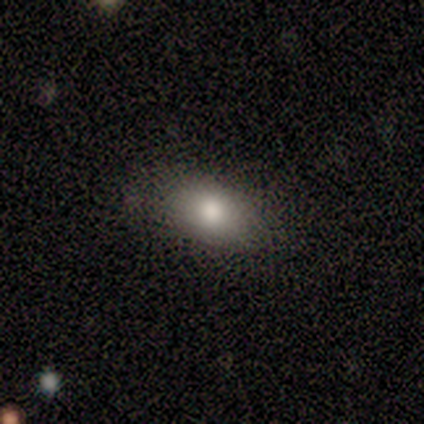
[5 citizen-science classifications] smooth_or_featured: smooth (p=0.80) [alt: star or artifact p=0.20]
how_rounded: in between (p=1.00)
merging: none (p=0.75) [alt: minor disturbance p=0.25]